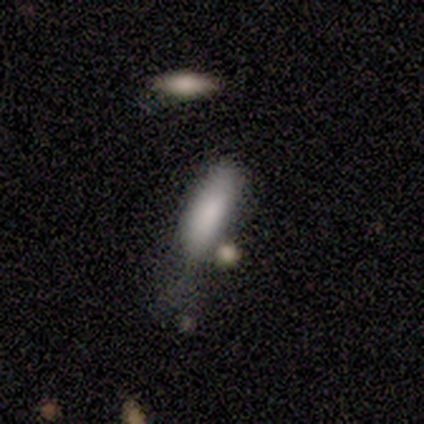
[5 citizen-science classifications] Volunteers were most divided on "merging": minor disturbance: 50%, none: 25%, major disturbance: 25%, merger: 0%. More confident: how rounded — cigar-shaped (67%); smooth or featured — smooth (60%).